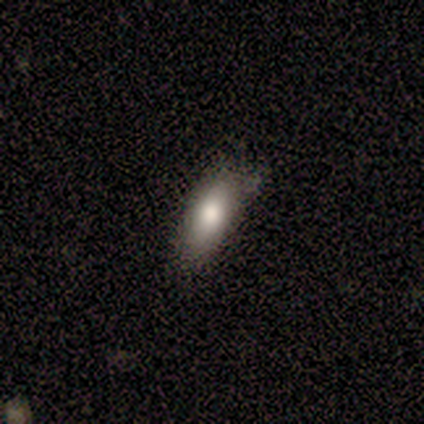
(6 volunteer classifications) Smooth or featured: smooth — 67% (star or artifact — 33%)
How rounded: in between — 75% (cigar-shaped — 25%)
Merging: none — 50% (tied with minor disturbance — 50%)